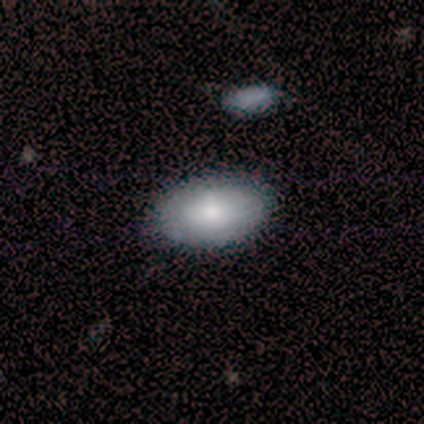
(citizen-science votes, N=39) Q: Smooth or featured?
A: smooth (69%); runner-up: featured or disk (28%)
Q: How rounded?
A: in between (93%); runner-up: round (7%)
Q: Merging?
A: none (76%); runner-up: merger (8%)